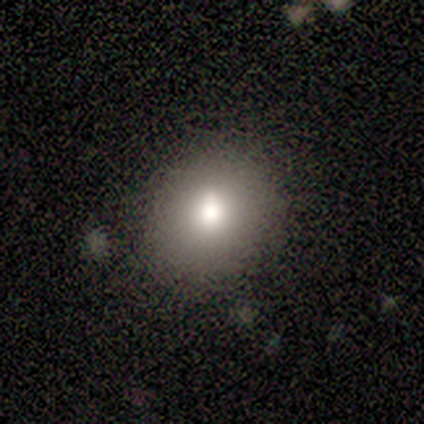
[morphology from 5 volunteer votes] Smooth or featured? smooth (80%)
How rounded? round (75%)
Merging? none (50%, tied with minor disturbance)